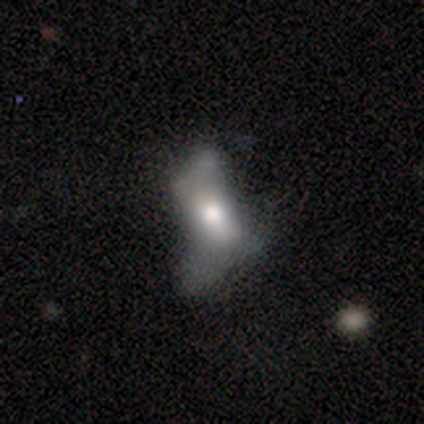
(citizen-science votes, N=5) Smooth or featured? smooth (60%)
How rounded? in between (100%)
Merging? major disturbance (40%)